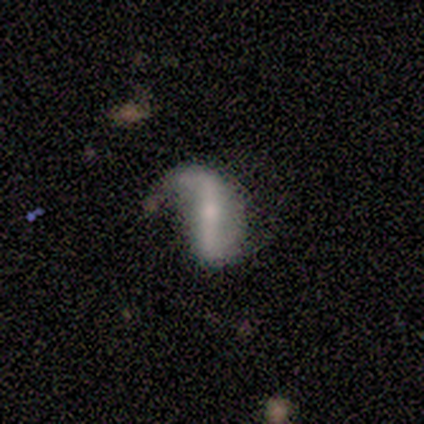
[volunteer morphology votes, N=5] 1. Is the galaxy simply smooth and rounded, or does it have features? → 100% featured or disk, 0% smooth, 0% star or artifact.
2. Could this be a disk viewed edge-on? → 100% no, 0% yes.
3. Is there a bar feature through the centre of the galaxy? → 80% strong, 20% weak, 0% no.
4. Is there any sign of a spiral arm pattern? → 80% yes, 20% no.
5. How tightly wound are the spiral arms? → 100% loose, 0% tight, 0% medium.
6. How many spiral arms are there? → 75% 2, 25% 1, 0% 3, 0% 4, 0% more than 4, 0% can't tell.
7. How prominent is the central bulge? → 60% small, 20% moderate, 20% none, 0% dominant, 0% large.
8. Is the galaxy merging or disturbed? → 60% none, 40% minor disturbance, 0% major disturbance, 0% merger.